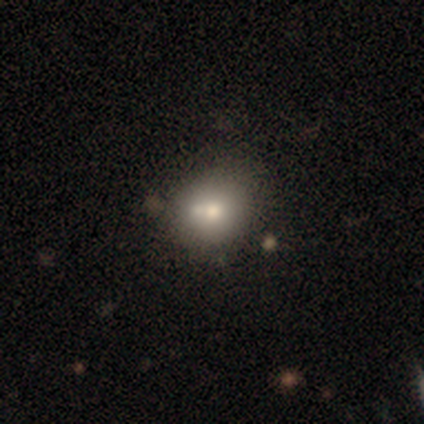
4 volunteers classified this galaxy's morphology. A featured or disk galaxy (50%) with no bar (100%), no spiral arms (100%) and a large central bulge (50%, tied with moderate). Merging: none (33%, tied with minor disturbance and merger).